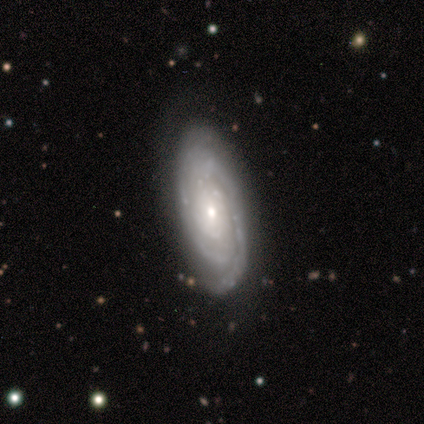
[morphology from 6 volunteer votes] type=featured or disk (100%); edge-on=no (100%); bar=no (50%); spiral arms=yes (100%); winding=tight (67%); arm count=2 (67%); bulge=small (83%); merging=none (67%).